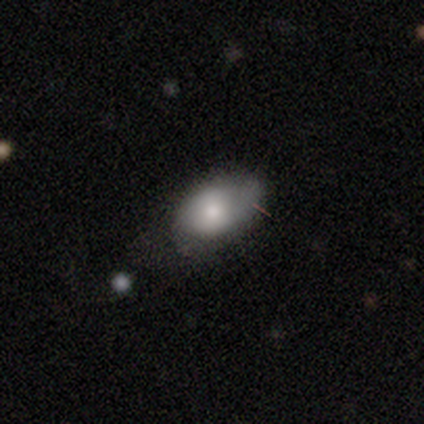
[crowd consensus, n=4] smooth-or-featured: smooth: 100% | featured or disk: 0% | star or artifact: 0%
  how-rounded: in between: 100% | round: 0% | cigar-shaped: 0%
  merging: none: 50% | minor disturbance: 25% | major disturbance: 25% | merger: 0%